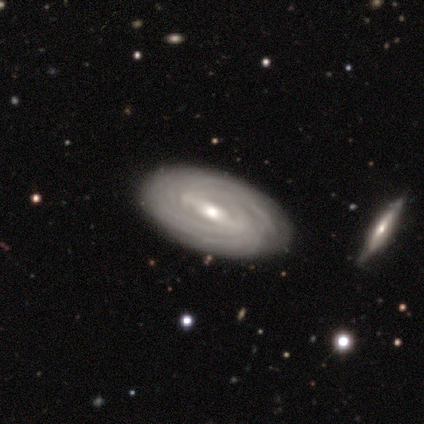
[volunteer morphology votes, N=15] This appears to be a featured or disk galaxy (87%) with a weak bar (55%), tight (100%) spiral arms (100%) and a moderate central bulge (55%). Merging: none (93%).